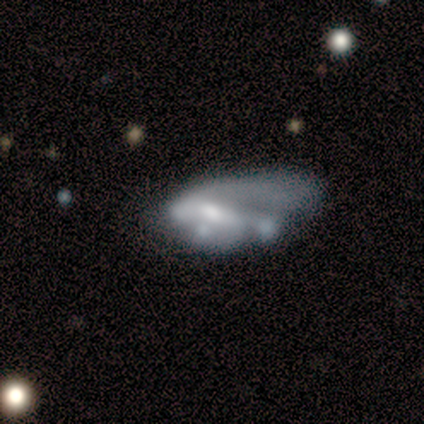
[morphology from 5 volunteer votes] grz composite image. It shows a featured or disk galaxy (60%) with a weak bar (67%), no spiral arms (67%) and a moderate central bulge (100%). Merging: major disturbance (40%).